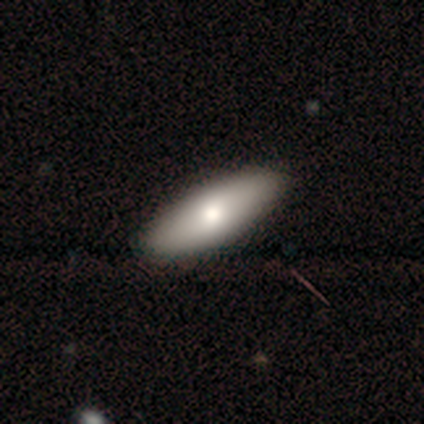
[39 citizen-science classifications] Smooth or featured?
  - smooth: 74% *
  - featured or disk: 18%
  - star or artifact: 8%
How rounded?
  - in between: 59% *
  - cigar-shaped: 34%
  - round: 7%
Merging?
  - none: 61% *
  - merger: 8%
  - minor disturbance: 3%
  - major disturbance: 0%